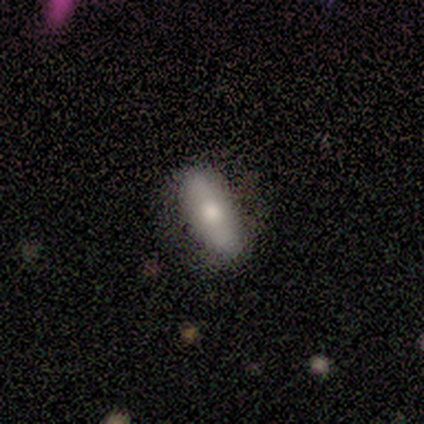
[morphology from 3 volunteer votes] This is clearly a smooth galaxy (100%). How rounded: likely in between (67%). Merging: likely none (67%).